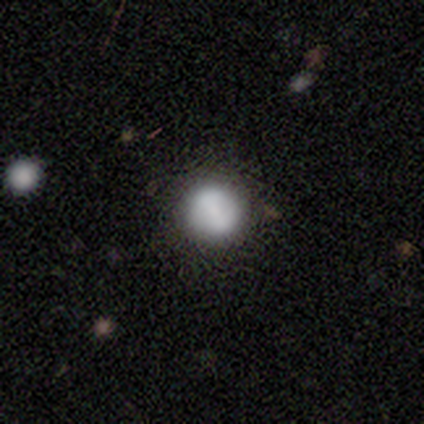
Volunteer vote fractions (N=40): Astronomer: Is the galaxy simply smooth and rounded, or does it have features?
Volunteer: smooth — 78%.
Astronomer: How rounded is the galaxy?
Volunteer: round — 94%.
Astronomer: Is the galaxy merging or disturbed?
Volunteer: none — 84%.